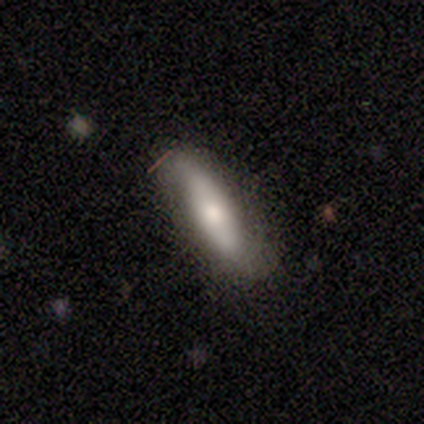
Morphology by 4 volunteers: Smooth or featured?
  - smooth: 50% * (tied)
  - featured or disk: 50% * (tied)
  - star or artifact: 0%
How rounded?
  - cigar-shaped: 100% *
  - round: 0%
  - in between: 0%
Merging?
  - none: 50% * (tied)
  - minor disturbance: 50% * (tied)
  - major disturbance: 0%
  - merger: 0%